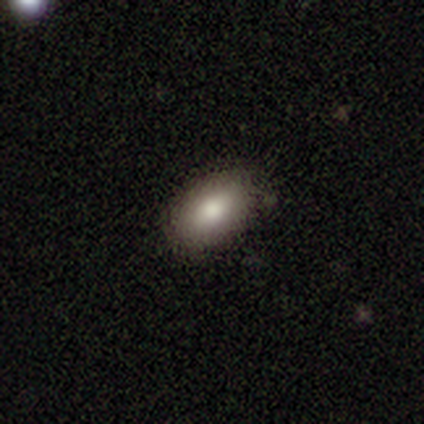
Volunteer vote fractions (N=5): smooth 80%, featured or disk 20%, star or artifact 0%. Down the decision tree: how rounded — in between (75%); merging — none (100%).